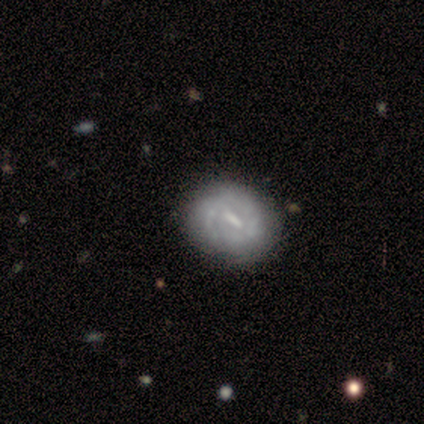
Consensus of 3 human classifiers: A featured or disk galaxy (100%) with a strong bar (100%), 2 (100%) tight (50%, tied with medium) spiral arms (67%) and a large central bulge (33%, tied with moderate and small).

Vote fractions:
- Smooth or featured? featured or disk: 100% / smooth: 0% / star or artifact: 0%
- Edge-on disk? no: 100% / yes: 0%
- Bar? strong: 100% / weak: 0% / no: 0%
- Spiral arms? yes: 67% / no: 33%
- Spiral winding? tight: 50% (tied) / medium: 50% (tied) / loose: 0%
- Spiral arm count? 2: 100% / 1: 0% / 3: 0% / 4: 0% / more than 4: 0% / can't tell: 0%
- Bulge size? large: 33% (tied) / moderate: 33% (tied) / small: 33% (tied) / dominant: 0% / none: 0%
- Merging? none: 100% / minor disturbance: 0% / major disturbance: 0% / merger: 0%